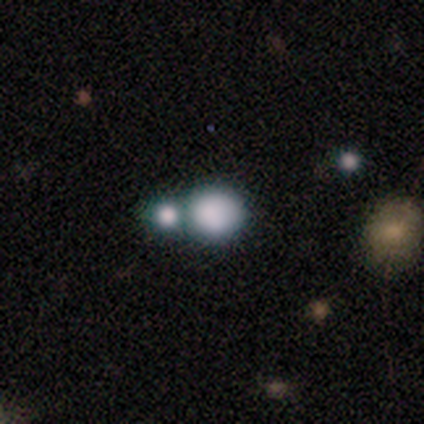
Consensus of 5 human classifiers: Q: Smooth or featured?
A: smooth (80%); runner-up: star or artifact (20%)
Q: How rounded?
A: round (100%)
Q: Merging?
A: none (75%); runner-up: minor disturbance (25%)